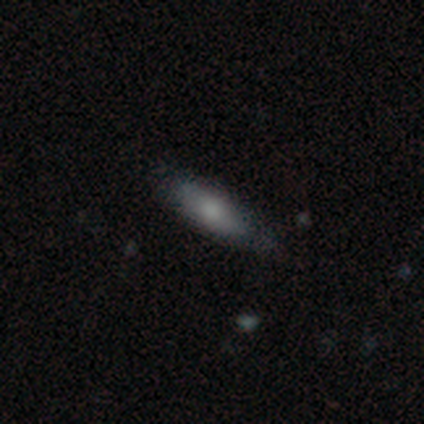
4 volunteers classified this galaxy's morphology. type=smooth (75%); roundness=in between (67%); merging=none (100%).